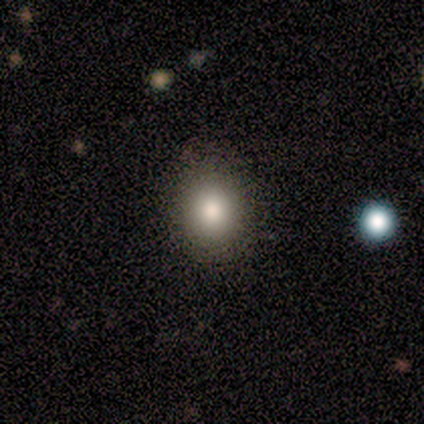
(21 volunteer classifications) This appears to be a smooth galaxy with no disk features (95%) that is round (80%). Merging: none (90%).